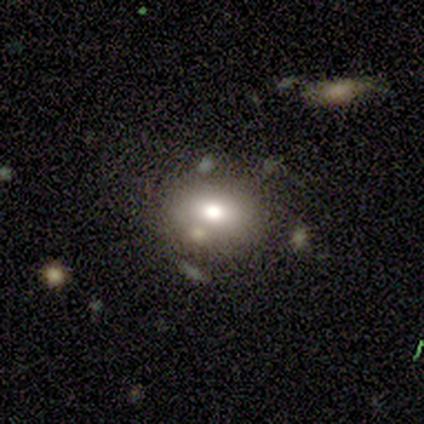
This is likely a smooth galaxy (72%). How rounded: likely in between (66%). Merging: likely none (64%).